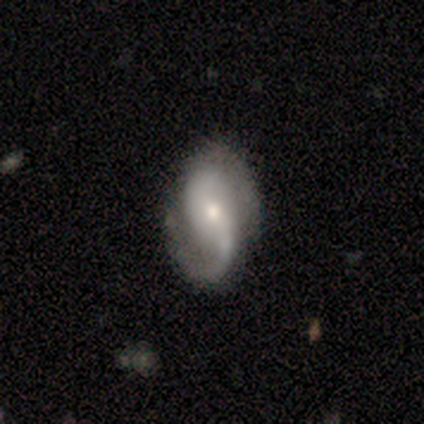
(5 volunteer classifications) smooth_or_featured: featured or disk (p=0.80) [alt: star or artifact p=0.20]
disk_edge_on: no (p=1.00)
bar: weak (p=0.75) [alt: no p=0.25]
has_spiral_arms: yes (p=1.00)
spiral_winding: loose (p=0.50) [alt: tight p=0.25]
spiral_arm_count: 2 (p=1.00)
bulge_size: moderate (p=0.50) [tied with: small p=0.50]
merging: none (p=0.50) [tied with: minor disturbance p=0.50]